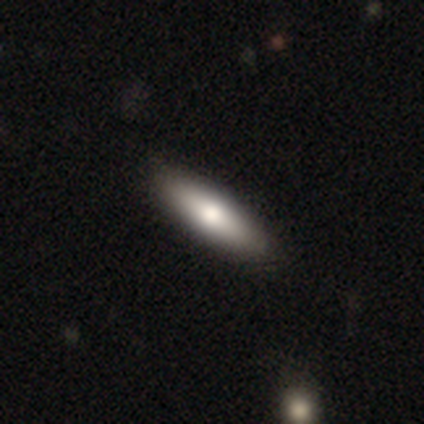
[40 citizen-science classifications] Smooth or featured: smooth — 72% (featured or disk — 28%)
How rounded: cigar-shaped — 52% (in between — 48%)
Merging: none — 72% (minor disturbance — 5%)